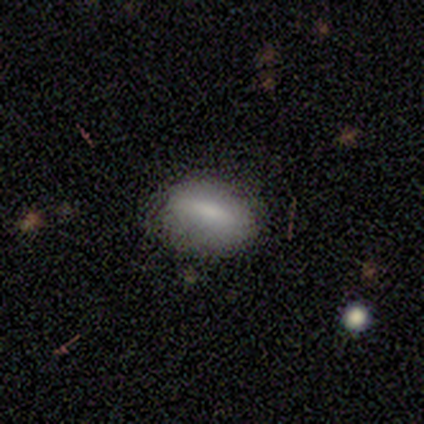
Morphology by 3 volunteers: This appears to be a smooth galaxy with no disk features (67%) that is in between round and cigar-shaped (50%, tied with cigar-shaped). Merging: none (100%).